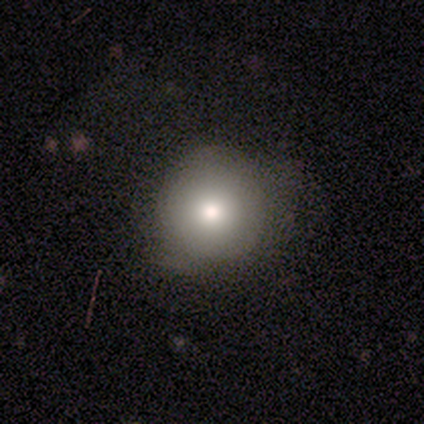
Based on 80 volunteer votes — A smooth galaxy with no disk features (79%) that is round (95%). Merging: none (32%).